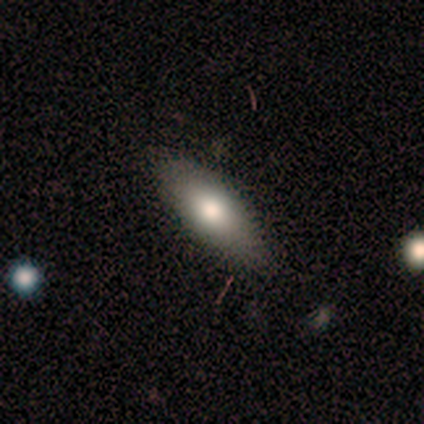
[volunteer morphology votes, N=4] This is clearly a smooth galaxy (100%). How rounded: likely in between (75%). Merging: clearly none (100%).